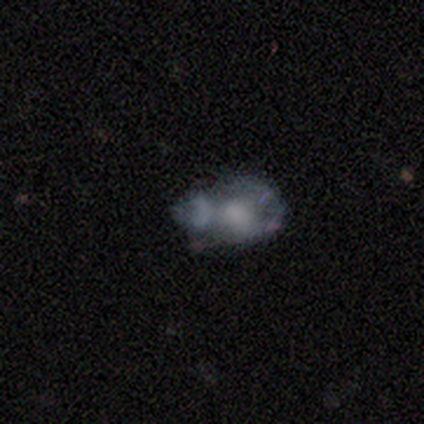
Volunteers were most divided on "bulge size" (2-way tie): moderate: 40%, small: 40%, none: 20%, dominant: 0%, large: 0%. Remaining: spiral arms — no (100%); edge-on disk — no (83%); bar — no (80%); smooth or featured — featured or disk (60%); merging — minor disturbance (40%).